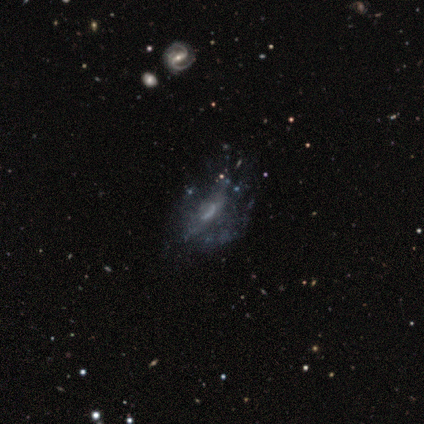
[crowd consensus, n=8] A featured or disk galaxy (100%) with no bar (86%), loose (50%) spiral arms (57%) and no central bulge (57%).

Vote fractions:
- Smooth or featured? featured or disk: 100% / smooth: 0% / star or artifact: 0%
- Edge-on disk? no: 88% / yes: 12%
- Bar? no: 86% / weak: 14% / strong: 0%
- Spiral arms? yes: 57% / no: 43%
- Spiral winding? loose: 50% / tight: 25% / medium: 25%
- Spiral arm count? can't tell: 75% / 1: 25% / 2: 0% / 3: 0% / 4: 0% / more than 4: 0%
- Bulge size? none: 57% / small: 43% / dominant: 0% / large: 0% / moderate: 0%
- Merging? none: 50% / minor disturbance: 38% / major disturbance: 12% / merger: 0%